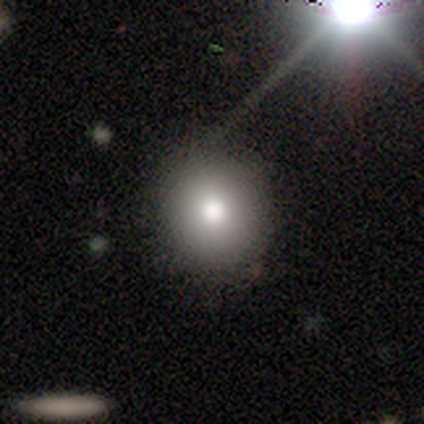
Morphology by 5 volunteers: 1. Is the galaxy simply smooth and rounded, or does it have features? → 40% smooth (tied), 40% star or artifact (tied), 20% featured or disk.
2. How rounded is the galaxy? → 100% round, 0% in between, 0% cigar-shaped.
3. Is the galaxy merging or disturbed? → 100% none, 0% minor disturbance, 0% major disturbance, 0% merger.